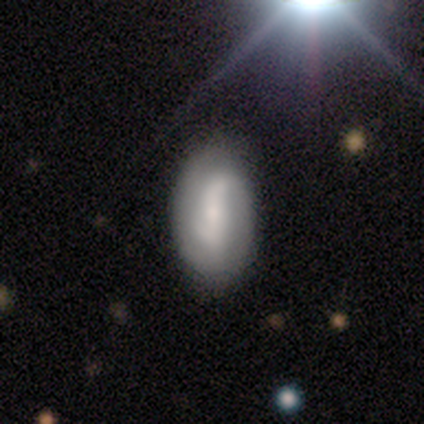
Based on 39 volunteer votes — A featured or disk galaxy (56%) with a strong bar (43%), 2 (80%) loose (47%) spiral arms (71%) and a moderate central bulge (43%, tied with small). Merging: none (78%).